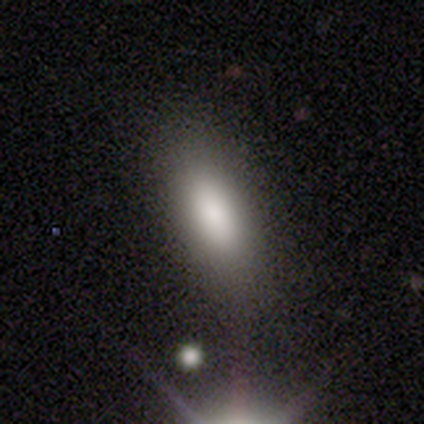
Volunteers were most divided on "smooth or featured": smooth: 72%, featured or disk: 14%, star or artifact: 14%. More confident: how rounded — in between (92%); merging — none (81%).